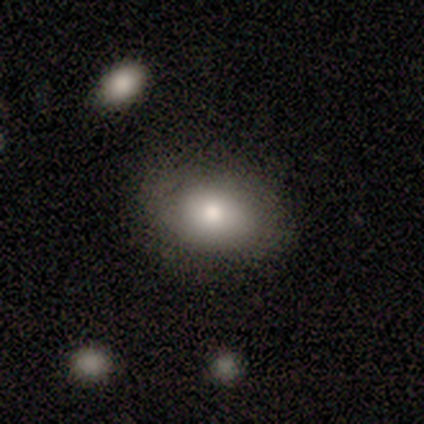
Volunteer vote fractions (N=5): Smooth or featured? 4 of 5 (80%) said smooth. How rounded? 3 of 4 (75%) said round. Merging? 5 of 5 (100%) said none.